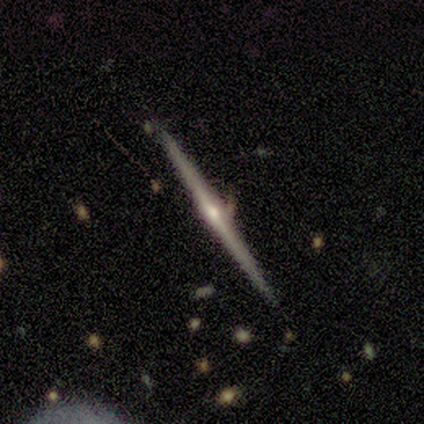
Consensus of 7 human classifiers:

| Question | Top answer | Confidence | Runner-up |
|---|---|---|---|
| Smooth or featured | featured or disk | 86% | smooth (14%) |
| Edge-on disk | yes | 100% | — |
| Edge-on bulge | rounded | 83% | boxy (17%) |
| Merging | none | 71% | minor disturbance (29%) |